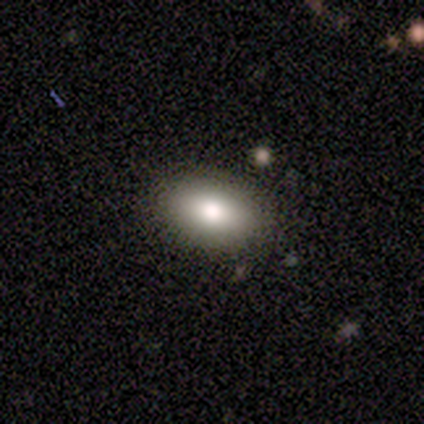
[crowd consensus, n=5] Smooth or featured? smooth (100%)
How rounded? in between (100%)
Merging? none (100%)